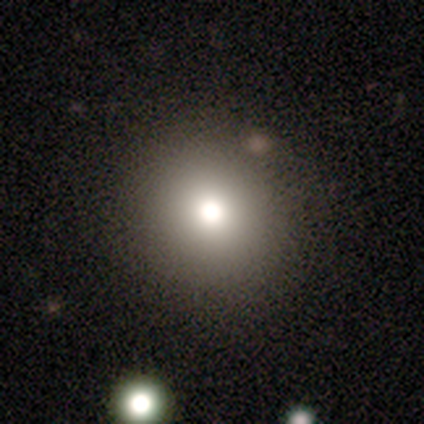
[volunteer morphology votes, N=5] Smooth or featured?
  - smooth: 100% *
  - featured or disk: 0%
  - star or artifact: 0%
How rounded?
  - round: 100% *
  - in between: 0%
  - cigar-shaped: 0%
Merging?
  - none: 100% *
  - minor disturbance: 0%
  - major disturbance: 0%
  - merger: 0%